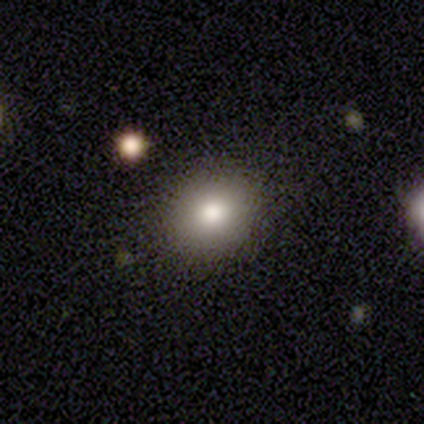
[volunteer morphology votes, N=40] This appears to be a smooth galaxy with no disk features (80%) that is round (78%). Merging: none (88%).